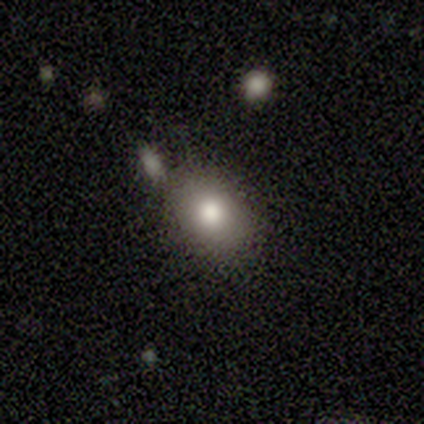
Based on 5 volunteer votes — A smooth galaxy with no disk features (100%) that is round (60%). Merging: none (80%).